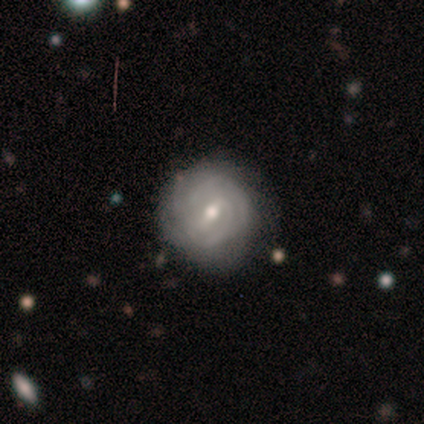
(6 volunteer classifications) Q: Smooth or featured?
A: featured or disk (100%)
Q: Edge-on disk?
A: no (100%)
Q: Bar?
A: weak (83%); runner-up: strong (17%)
Q: Spiral arms?
A: yes (100%)
Q: Spiral winding?
A: tight (67%); runner-up: medium (33%)
Q: Spiral arm count?
A: can't tell (67%); runner-up: 2 (33%)
Q: Bulge size?
A: small (67%); runner-up: moderate (33%)
Q: Merging?
A: none (83%); runner-up: minor disturbance (17%)